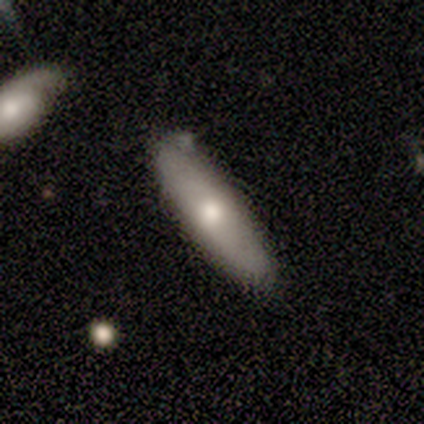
smooth-or-featured: featured or disk: 60% | smooth: 40% | star or artifact: 0%
  disk-edge-on: yes: 100% | no: 0%
    edge-on-bulge: rounded: 100% | boxy: 0% | none: 0%
  merging: none: 80% | minor disturbance: 20% | major disturbance: 0% | merger: 0%